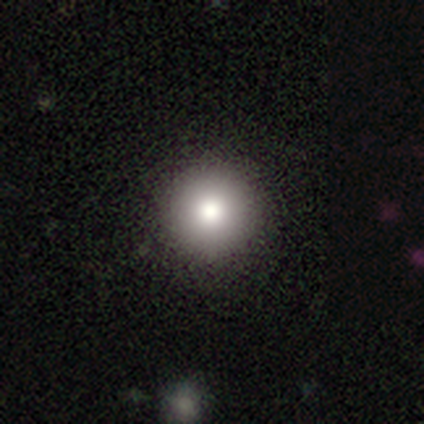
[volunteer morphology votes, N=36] A smooth galaxy with no disk features (75%) that is round (93%). Merging: none (59%).